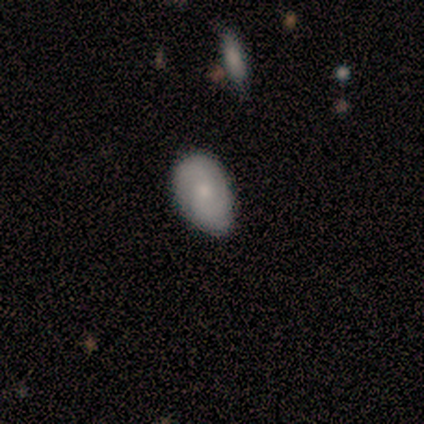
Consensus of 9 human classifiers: This appears to be a smooth galaxy with no disk features (56%) that is in between round and cigar-shaped (100%). Merging: minor disturbance (67%).